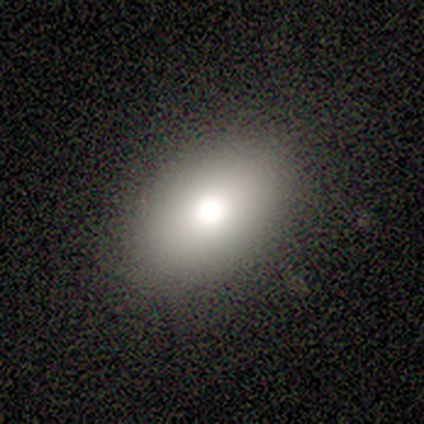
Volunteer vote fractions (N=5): Q: Smooth or featured?
A: smooth (100%)
Q: How rounded?
A: in between (80%); runner-up: round (20%)
Q: Merging?
A: none (80%); runner-up: minor disturbance (20%)